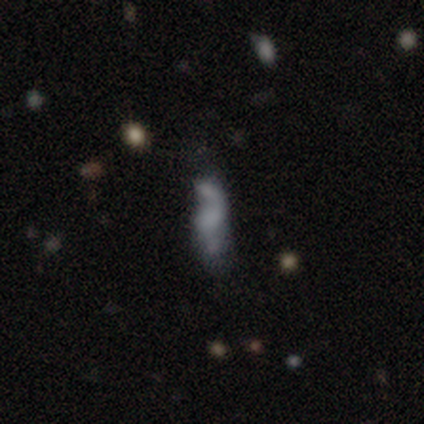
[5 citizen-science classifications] This is clearly a featured or disk galaxy (80%). It is clearly not viewed edge-on (100%). Bar: likely no (75%). Spiral arm pattern: likely no (75%). Central bulge: likely none (75%). Merging: possibly merger (50%).